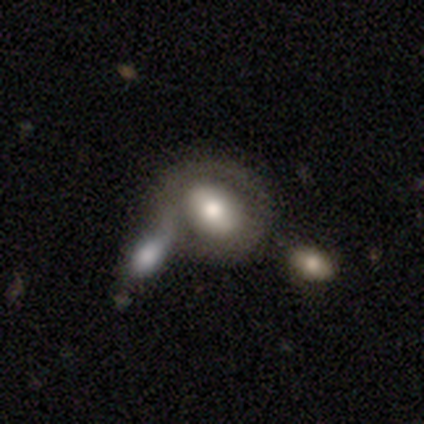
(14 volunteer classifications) Smooth or featured? featured or disk (57%)
Edge-on disk? no (100%)
Bar? strong (50%)
Spiral arms? no (100%)
Bulge size? moderate (50%)
Merging? merger (64%)